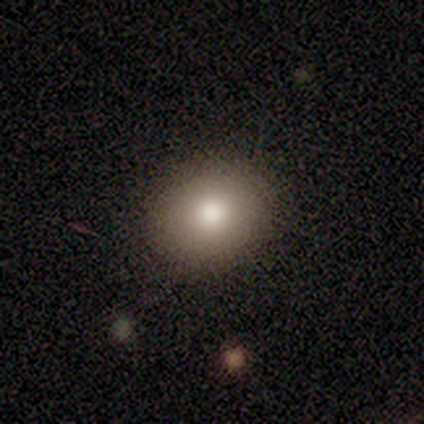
smooth_or_featured: smooth (p=0.80) [alt: star or artifact p=0.20]
how_rounded: round (p=0.88) [alt: in between p=0.12]
merging: none (p=1.00)